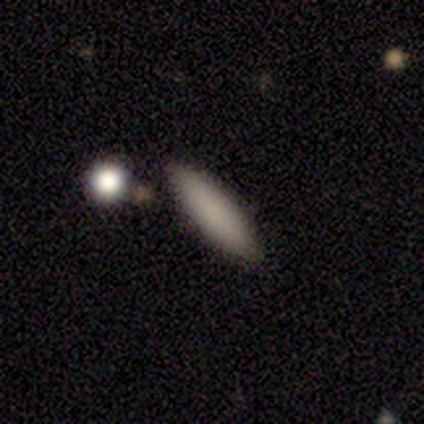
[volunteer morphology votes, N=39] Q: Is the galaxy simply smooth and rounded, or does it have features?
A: smooth — 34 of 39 (87%).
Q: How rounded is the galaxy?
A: cigar-shaped — 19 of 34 (56%).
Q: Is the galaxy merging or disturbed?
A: none — 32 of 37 (86%).